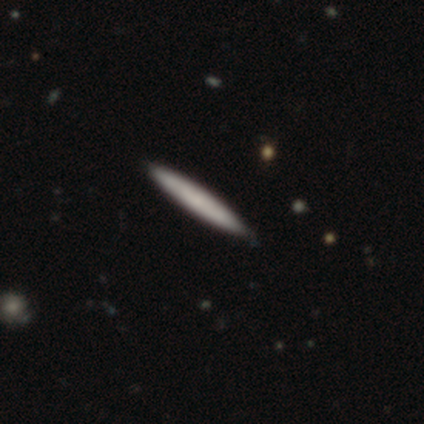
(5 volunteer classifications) This is clearly a smooth galaxy (100%). How rounded: clearly cigar-shaped (100%). Merging: clearly none (100%).